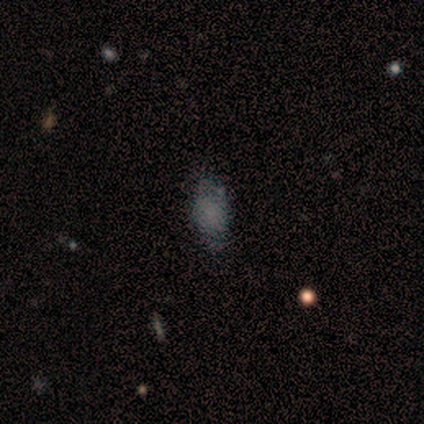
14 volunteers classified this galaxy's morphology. type=smooth (50%); roundness=in between (100%); merging=none (58%).